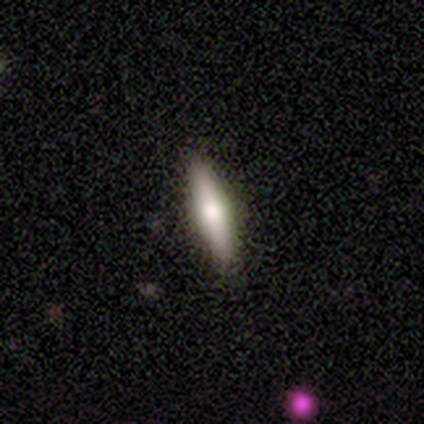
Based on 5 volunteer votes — Overall: smooth (60%; featured or disk 40%). How rounded: in between (67%; cigar-shaped 33%). Merging: none (100%).